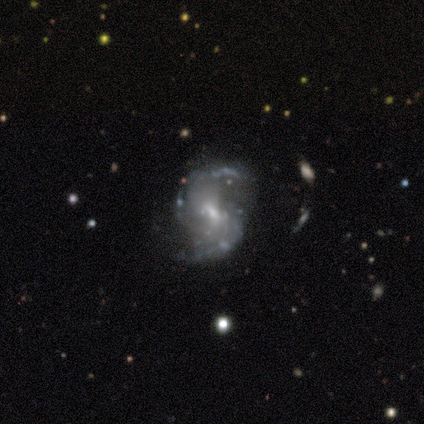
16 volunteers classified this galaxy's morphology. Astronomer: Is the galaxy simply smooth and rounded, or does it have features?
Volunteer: featured or disk — 88%.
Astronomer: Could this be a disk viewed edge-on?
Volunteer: no — 100%.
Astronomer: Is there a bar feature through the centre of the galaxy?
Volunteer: weak — 64%.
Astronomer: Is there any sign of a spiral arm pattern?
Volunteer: yes — 86%.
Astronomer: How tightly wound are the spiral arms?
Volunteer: medium — 67%.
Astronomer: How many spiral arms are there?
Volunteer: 2 — 92%.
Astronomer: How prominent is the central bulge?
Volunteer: small — 79%.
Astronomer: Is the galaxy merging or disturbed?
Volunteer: none — 87%.